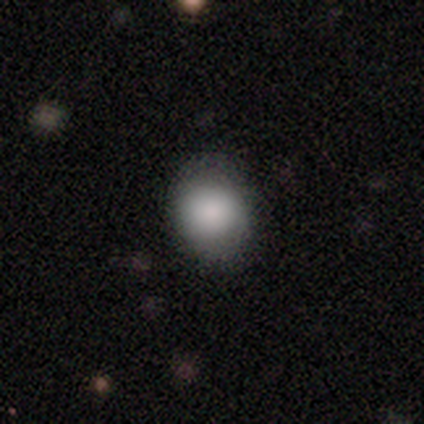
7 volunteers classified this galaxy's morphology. A smooth galaxy with no disk features (71%) that is in between round and cigar-shaped (60%). Merging: none (86%).